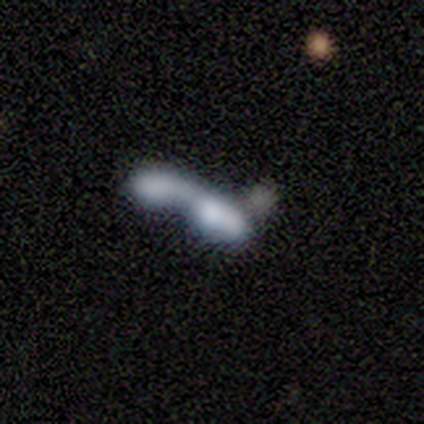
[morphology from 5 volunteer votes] This is clearly a smooth galaxy (80%). How rounded: clearly in between (100%). Merging: clearly merger (80%).